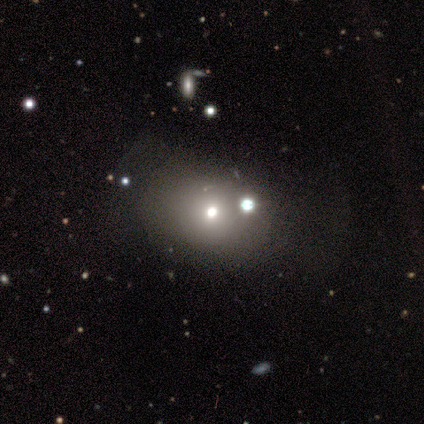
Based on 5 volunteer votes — Overall: smooth (40%, tied with featured or disk). How rounded: in between (100%). Merging: none (50%, tied with merger).